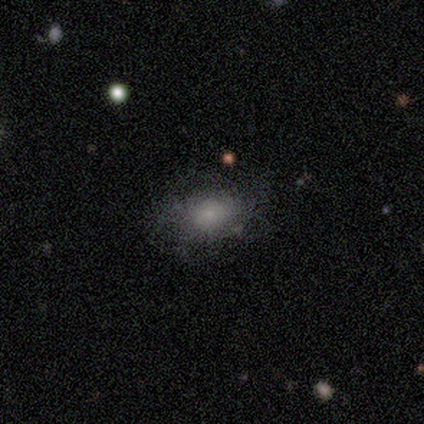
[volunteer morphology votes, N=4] A smooth galaxy with no disk features (75%) that is in between round and cigar-shaped (67%).

Vote fractions:
- Smooth or featured? smooth: 75% / star or artifact: 25% / featured or disk: 0%
- How rounded? in between: 67% / round: 33% / cigar-shaped: 0%
- Merging? none: 100% / minor disturbance: 0% / major disturbance: 0% / merger: 0%